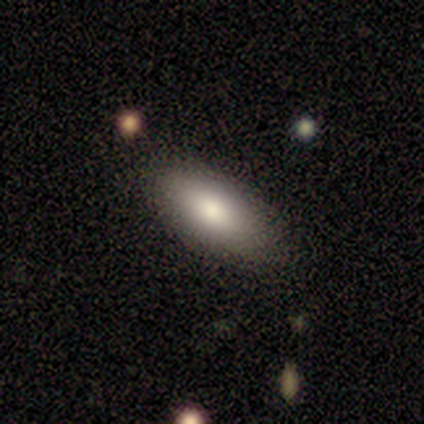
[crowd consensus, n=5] Smooth or featured: smooth — 80% (featured or disk — 20%)
How rounded: in between — 100%
Merging: none — 100%